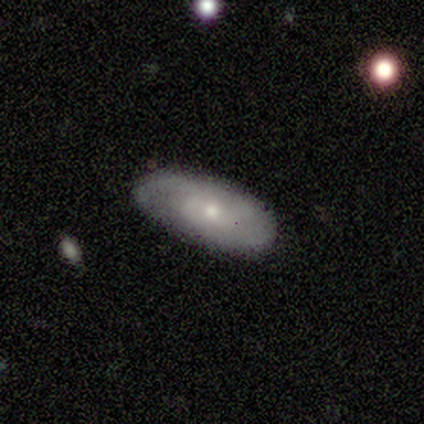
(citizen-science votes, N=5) Morphology: type=featured or disk (100%); edge-on=no (80%); bar=no (100%); spiral arms=yes (75%); winding=medium (67%); arm count=1 (67%); bulge=moderate (50%, tied with small); merging=none (60%).